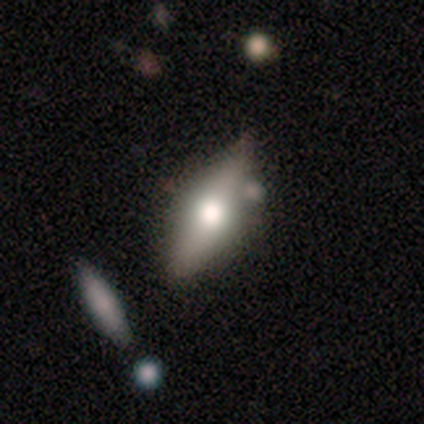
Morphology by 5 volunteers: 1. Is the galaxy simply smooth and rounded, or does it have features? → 60% featured or disk, 40% smooth, 0% star or artifact.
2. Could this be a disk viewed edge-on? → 100% yes, 0% no.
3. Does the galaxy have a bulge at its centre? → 67% rounded, 33% boxy, 0% none.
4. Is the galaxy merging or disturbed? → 100% none, 0% minor disturbance, 0% major disturbance, 0% merger.